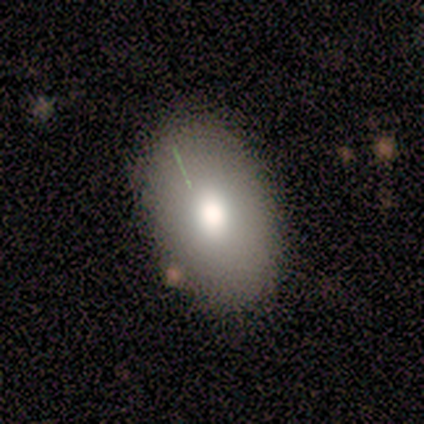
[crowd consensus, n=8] This appears to be a smooth galaxy with no disk features (62%) that is in between round and cigar-shaped (80%). Merging: none (86%).